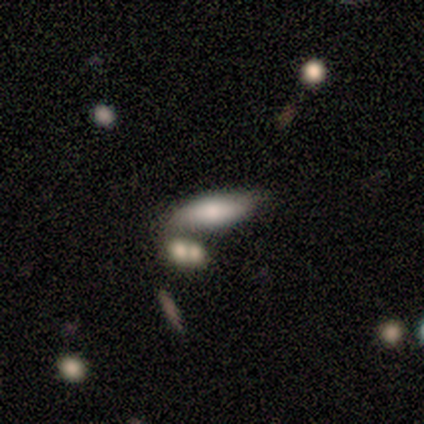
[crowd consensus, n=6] Q: Smooth or featured?
A: smooth (83%); runner-up: featured or disk (17%)
Q: How rounded?
A: cigar-shaped (60%); runner-up: in between (40%)
Q: Merging?
A: none (50%); runner-up: merger (33%)